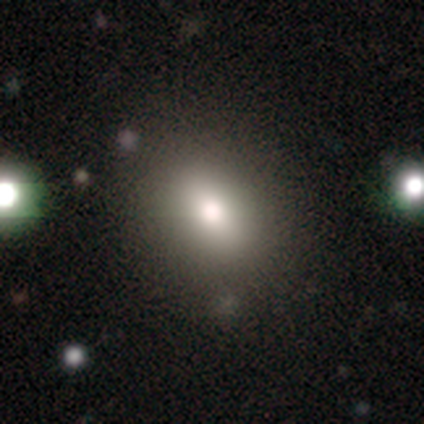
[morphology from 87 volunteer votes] Overall: smooth (67%). How rounded: round (52%; in between 47%). Merging: none (82%).